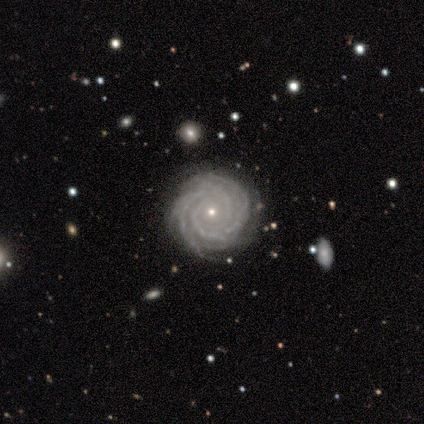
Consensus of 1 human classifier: Q: Smooth or featured?
A: featured or disk (100%)
Q: Edge-on disk?
A: no (100%)
Q: Bar?
A: no (100%)
Q: Spiral arms?
A: yes (100%)
Q: Spiral winding?
A: medium (100%)
Q: Spiral arm count?
A: 4 (100%)
Q: Bulge size?
A: small (100%)
Q: Merging?
A: none (100%)